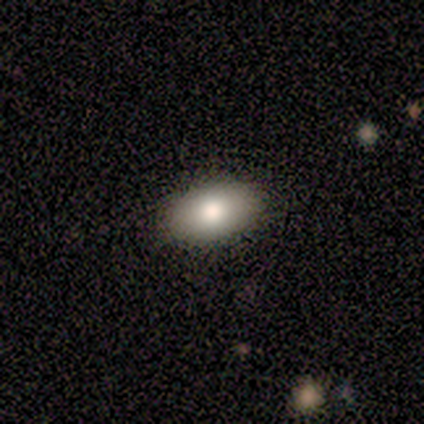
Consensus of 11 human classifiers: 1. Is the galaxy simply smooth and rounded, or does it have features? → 73% smooth, 18% featured or disk, 9% star or artifact.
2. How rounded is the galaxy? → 100% in between, 0% round, 0% cigar-shaped.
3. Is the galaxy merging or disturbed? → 80% none, 10% minor disturbance, 10% major disturbance, 0% merger.